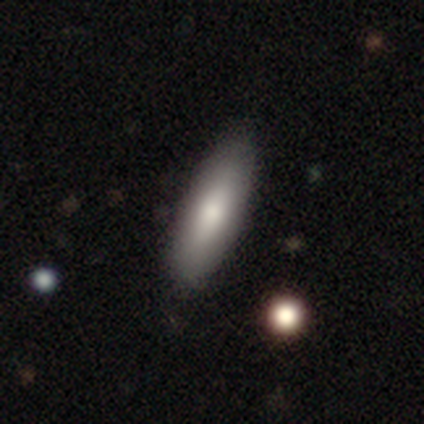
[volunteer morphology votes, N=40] A smooth galaxy with no disk features (68%) that is in between round and cigar-shaped (74%).

Vote fractions:
- Smooth or featured? smooth: 68% / featured or disk: 32% / star or artifact: 0%
- How rounded? in between: 74% / cigar-shaped: 26% / round: 0%
- Merging? none: 65% / merger: 8% / major disturbance: 2% / minor disturbance: 0%